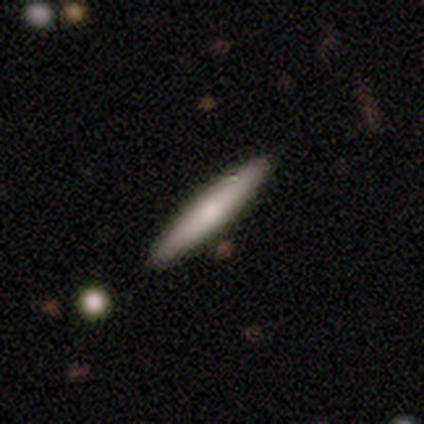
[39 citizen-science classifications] Smooth or featured? 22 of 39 (56%) said smooth. How rounded? 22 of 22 (100%) said cigar-shaped. Merging? 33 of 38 (87%) said none.